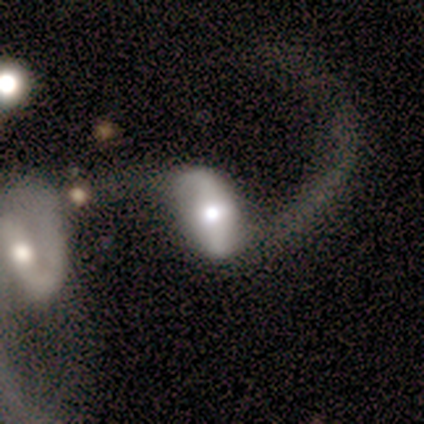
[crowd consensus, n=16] Smooth or featured: featured or disk — 62% (smooth — 38%)
Edge-on disk: no — 90% (yes — 10%)
Bar: weak — 56% (strong — 44%)
Spiral arms: yes — 89% (no — 11%)
Spiral winding: loose — 100%
Spiral arm count: 2 — 100%
Bulge size: moderate — 89% (large — 11%)
Merging: major disturbance — 38% (none — 25%)